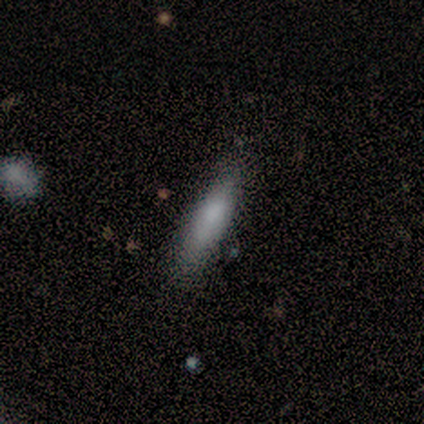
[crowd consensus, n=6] This is clearly a smooth galaxy (83%). How rounded: clearly cigar-shaped (80%). Merging: possibly none (50%).